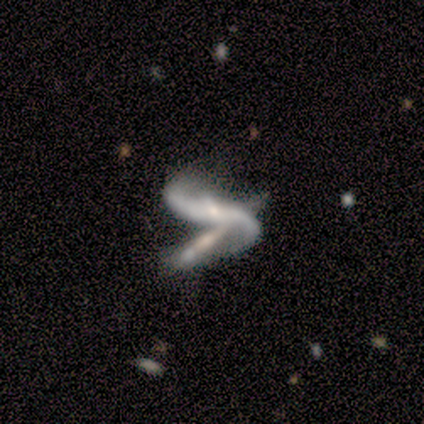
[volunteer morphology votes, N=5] Smooth or featured?
  - featured or disk: 80% *
  - star or artifact: 20%
  - smooth: 0%
Edge-on disk?
  - no: 75% *
  - yes: 25%
Bar?
  - weak: 67% *
  - strong: 33%
  - no: 0%
Spiral arms?
  - yes: 100% *
  - no: 0%
Spiral winding?
  - loose: 67% *
  - medium: 33%
  - tight: 0%
Spiral arm count?
  - 2: 67% *
  - 1: 33%
  - 3: 0%
  - 4: 0%
  - more than 4: 0%
  - can't tell: 0%
Bulge size?
  - small: 67% *
  - none: 33%
  - dominant: 0%
  - large: 0%
  - moderate: 0%
Merging?
  - major disturbance: 50% * (tied)
  - merger: 50% * (tied)
  - none: 0%
  - minor disturbance: 0%